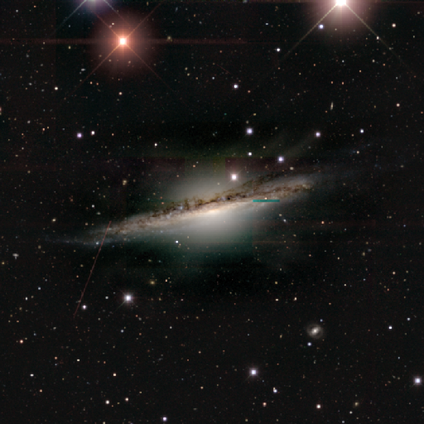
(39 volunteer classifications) Smooth or featured?
  - featured or disk: 77% *
  - star or artifact: 15%
  - smooth: 8%
Edge-on disk?
  - yes: 90% *
  - no: 10%
Edge-on bulge?
  - rounded: 67% *
  - boxy: 19%
  - none: 15%
Merging?
  - none: 42% *
  - minor disturbance: 21%
  - major disturbance: 9%
  - merger: 0%